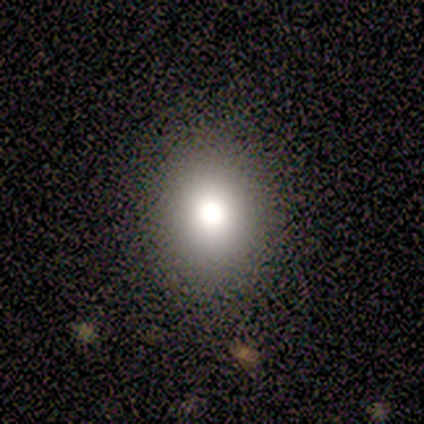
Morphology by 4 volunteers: smooth 75%, featured or disk 25%, star or artifact 0%. Down the decision tree: how rounded — in between (67%); merging — none (100%).